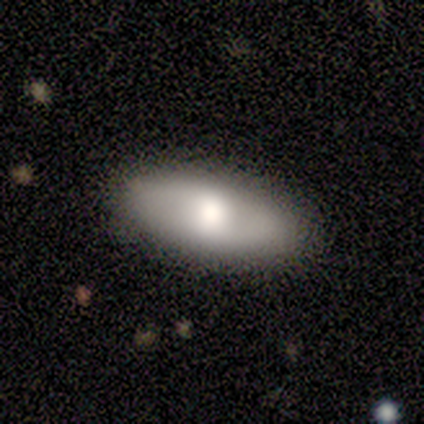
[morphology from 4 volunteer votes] This appears to be a smooth galaxy with no disk features (50%, tied with featured or disk) that is in between round and cigar-shaped (50%, tied with cigar-shaped). Merging: none (100%).